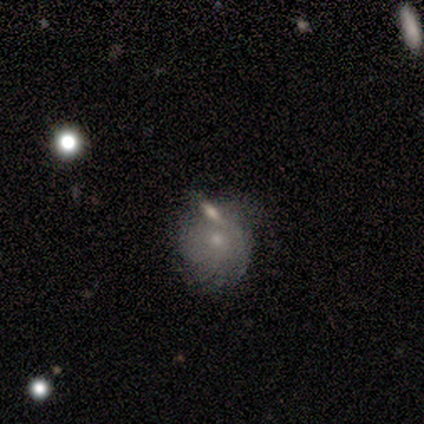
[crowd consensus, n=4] featured or disk 75%, smooth 25%, star or artifact 0%. Down the decision tree: edge-on disk — no (100%); bar — no (100%); spiral arms — yes (100%); spiral arm count — can't tell (100%); spiral winding — tight (67%); bulge size — small (100%); merging — minor disturbance (50%).